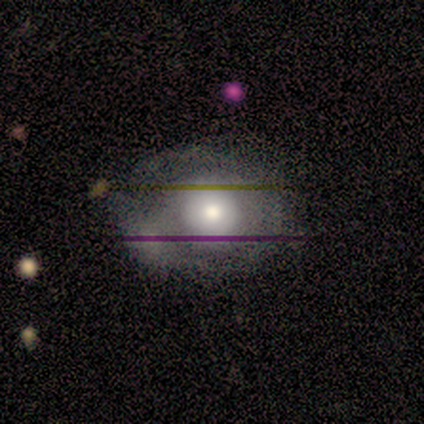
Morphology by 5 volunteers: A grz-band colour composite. It shows a featured or disk galaxy (60%) with no bar (67%), no spiral arms (67%) and a moderate central bulge (67%). Merging: none (60%).